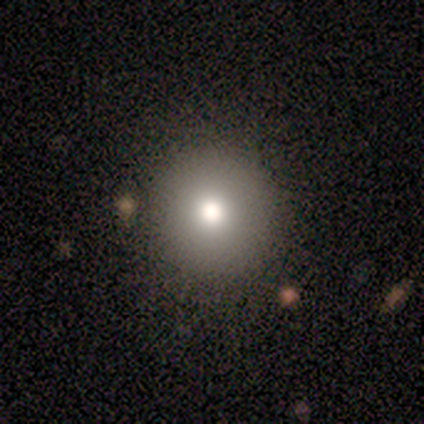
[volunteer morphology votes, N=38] Smooth or featured?
  - smooth: 76% *
  - star or artifact: 13%
  - featured or disk: 11%
How rounded?
  - round: 97% *
  - in between: 3%
  - cigar-shaped: 0%
Merging?
  - none: 94% *
  - minor disturbance: 6%
  - major disturbance: 0%
  - merger: 0%